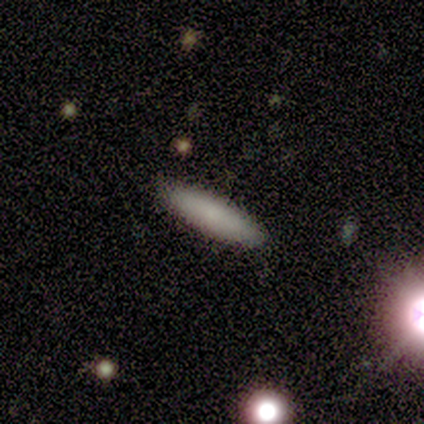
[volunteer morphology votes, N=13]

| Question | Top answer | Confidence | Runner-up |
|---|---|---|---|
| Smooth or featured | smooth | 92% | star or artifact (8%) |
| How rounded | cigar-shaped | 100% | — |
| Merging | none | 100% | — |